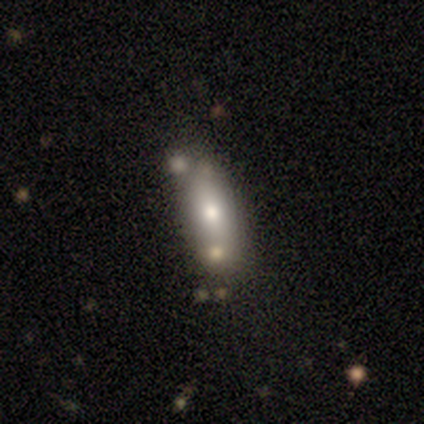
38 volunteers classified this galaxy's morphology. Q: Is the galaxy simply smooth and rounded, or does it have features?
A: smooth — 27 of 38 (71%).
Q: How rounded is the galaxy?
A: in between — 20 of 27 (74%).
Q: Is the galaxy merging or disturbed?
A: none — 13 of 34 (38%).